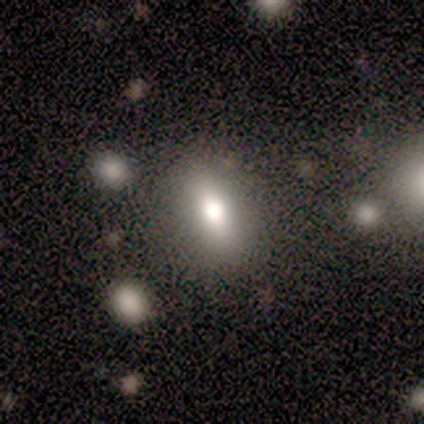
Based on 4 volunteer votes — star or artifact 50%, smooth 25%, featured or disk 25%.